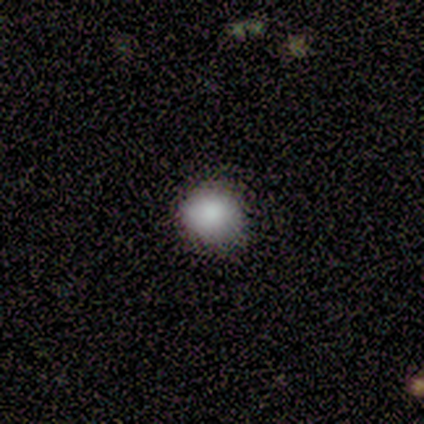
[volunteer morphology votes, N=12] type=smooth (83%); roundness=round (100%); merging=none (82%).